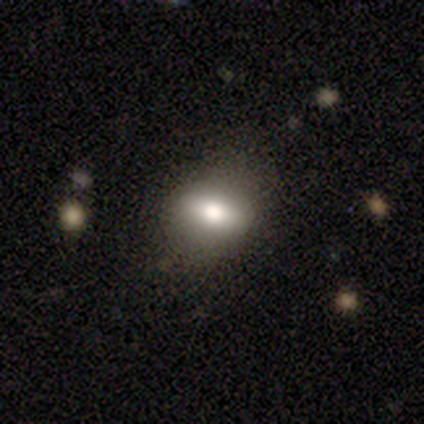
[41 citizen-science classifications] Volunteers were most divided on "how rounded": in between: 73%, round: 23%, cigar-shaped: 3%. More confident: merging — none (85%); smooth or featured — smooth (73%).